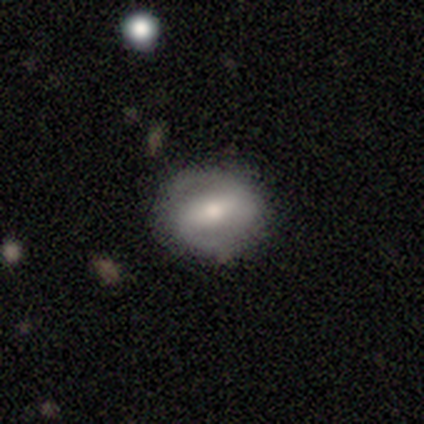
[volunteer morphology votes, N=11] Smooth or featured? featured or disk (73%)
Edge-on disk? no (100%)
Bar? strong (38%, tied with weak)
Spiral arms? no (62%)
Bulge size? moderate (50%)
Merging? none (73%)